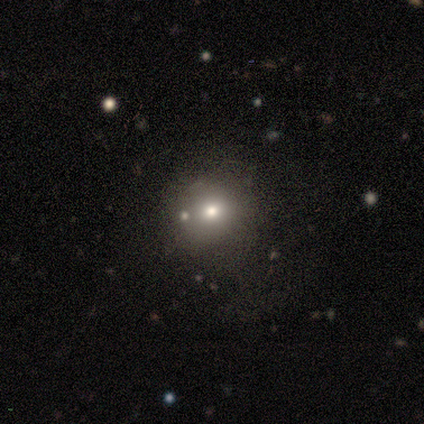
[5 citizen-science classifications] Overall: smooth (60%; star or artifact 40%). How rounded: round (67%; in between 33%). Merging: none (67%; merger 33%).